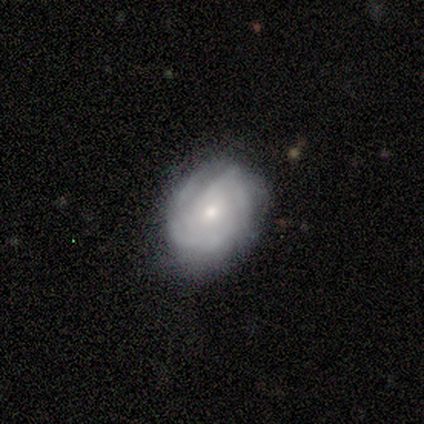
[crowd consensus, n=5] This appears to be a featured or disk galaxy (80%) with no bar (100%), 3 (50%, tied with can't tell) tight (50%, tied with medium) spiral arms (67%) and a moderate central bulge (67%). Merging: none (80%).